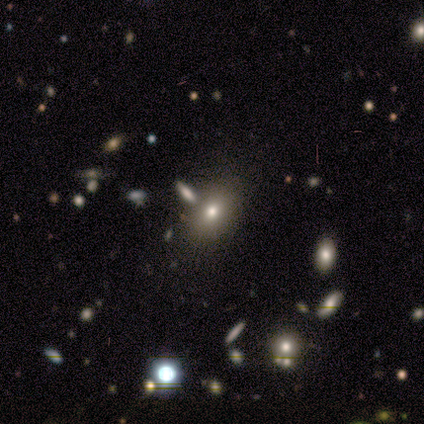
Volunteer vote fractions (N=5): A smooth galaxy with no disk features (80%) that is in between round and cigar-shaped (75%).

Vote fractions:
- Smooth or featured? smooth: 80% / star or artifact: 20% / featured or disk: 0%
- How rounded? in between: 75% / round: 25% / cigar-shaped: 0%
- Merging? none: 100% / minor disturbance: 0% / major disturbance: 0% / merger: 0%